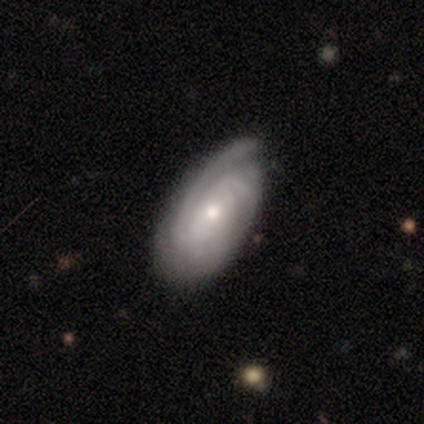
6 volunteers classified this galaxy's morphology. This is possibly a featured or disk galaxy (50%). It is clearly not viewed edge-on (100%). Bar: likely no (67%). Spiral arm pattern: clearly yes (100%). Spiral arm count: likely 2 (67%). Spiral winding: clearly tight (100%). Central bulge: likely small (67%). Merging: likely none (60%).